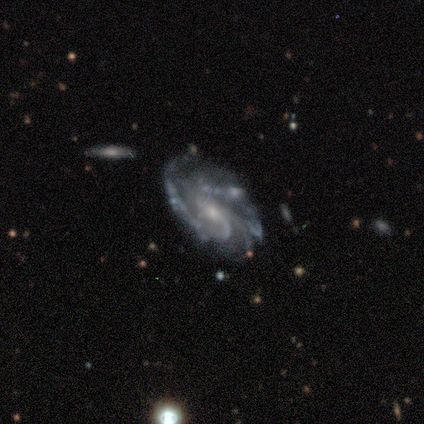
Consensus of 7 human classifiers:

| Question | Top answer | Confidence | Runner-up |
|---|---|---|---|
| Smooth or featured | featured or disk | 100% | — |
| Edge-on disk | no | 100% | — |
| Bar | no | 57% | weak (43%) |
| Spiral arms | yes | 100% | — |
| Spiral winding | tight | 71% | medium (14%) |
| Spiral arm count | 3 | 57% | can't tell (29%) |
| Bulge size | small | 57% | moderate (29%) |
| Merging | none | 86% | minor disturbance (14%) |